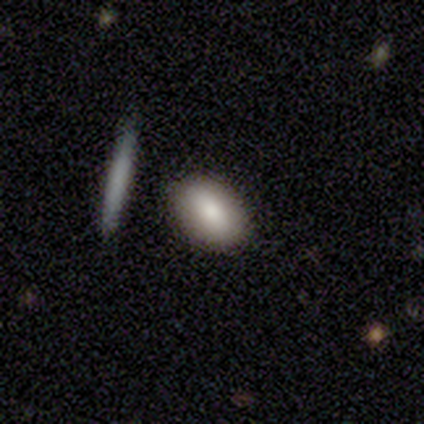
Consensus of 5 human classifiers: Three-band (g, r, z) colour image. It shows a smooth galaxy with no disk features (80%) that is in between round and cigar-shaped (75%). Merging: none (80%).